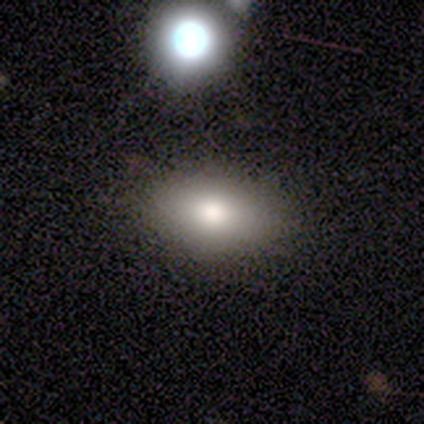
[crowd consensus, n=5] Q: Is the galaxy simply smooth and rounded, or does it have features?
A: smooth — 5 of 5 (100%).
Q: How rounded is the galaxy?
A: in between — 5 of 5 (100%).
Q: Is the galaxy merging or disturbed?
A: none — 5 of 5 (100%).